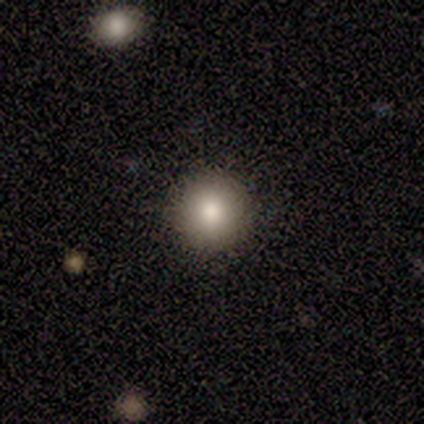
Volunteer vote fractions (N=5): smooth_or_featured: smooth (p=1.00)
how_rounded: round (p=1.00)
merging: none (p=1.00)